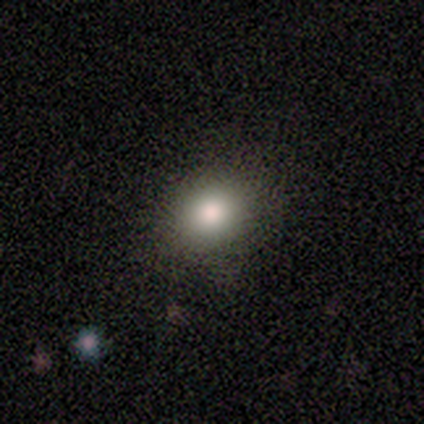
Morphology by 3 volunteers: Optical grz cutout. It shows a smooth galaxy with no disk features (67%) that is round (100%). Merging: none (100%).